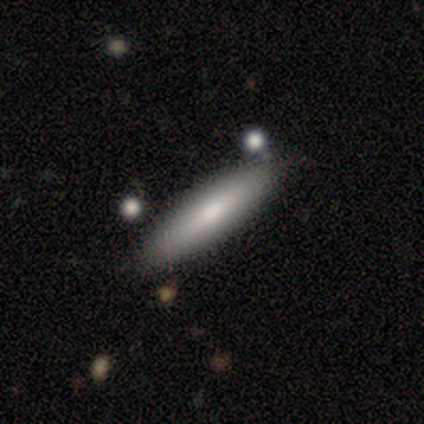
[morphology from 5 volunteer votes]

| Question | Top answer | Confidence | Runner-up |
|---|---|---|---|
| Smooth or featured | smooth | 100% | — |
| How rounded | cigar-shaped | 80% | in between (20%) |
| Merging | none | 80% | minor disturbance (20%) |